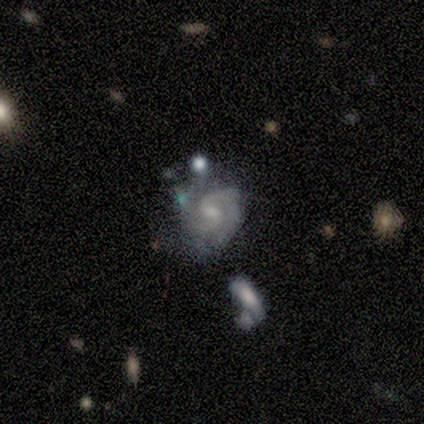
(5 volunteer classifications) This is clearly a featured or disk galaxy (100%). It is clearly not viewed edge-on (100%). Bar: clearly weak (80%). Spiral arm pattern: clearly yes (100%). Spiral arm count: marginally 2 (40%). Spiral winding: likely medium (60%). Central bulge: likely small (60%). Merging: marginally none (40%, tied with merger).